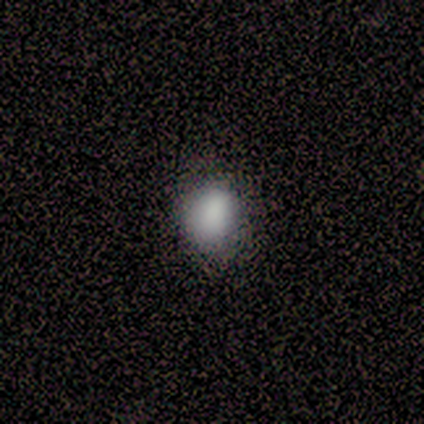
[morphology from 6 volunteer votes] Q: Smooth or featured?
A: smooth (67%); runner-up: featured or disk (17%)
Q: How rounded?
A: round (100%)
Q: Merging?
A: none (100%)